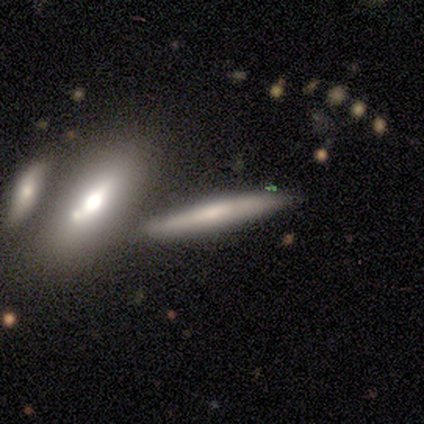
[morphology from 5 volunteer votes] Volunteers were most divided on "smooth or featured" (2-way tie): smooth: 40%, featured or disk: 40%, star or artifact: 20%; "how rounded" (2-way tie): round: 50%, cigar-shaped: 50%, in between: 0%. More confident: merging — none (75%).